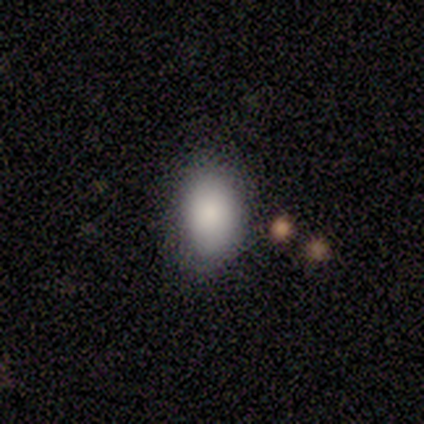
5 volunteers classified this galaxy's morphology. smooth-or-featured: smooth: 60% | featured or disk: 20% | star or artifact: 20%
  how-rounded: in between: 100% | round: 0% | cigar-shaped: 0%
  merging: none: 100% | minor disturbance: 0% | major disturbance: 0% | merger: 0%